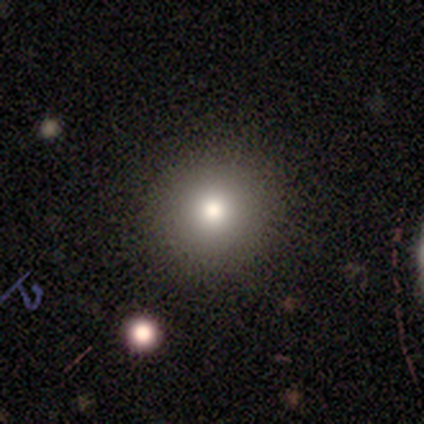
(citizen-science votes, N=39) A smooth galaxy with no disk features (72%) that is round (96%). Merging: none (97%).